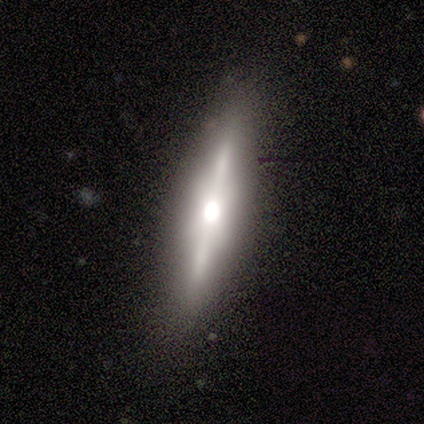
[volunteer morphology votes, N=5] type=featured or disk (80%); edge-on=yes (100%); edge-on bulge=rounded (75%); merging=none (80%).